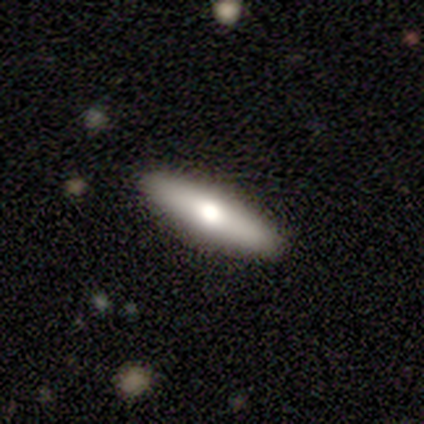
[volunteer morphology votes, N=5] A smooth galaxy with no disk features (40%, tied with featured or disk) that is in between round and cigar-shaped (50%, tied with cigar-shaped). Merging: none (100%).